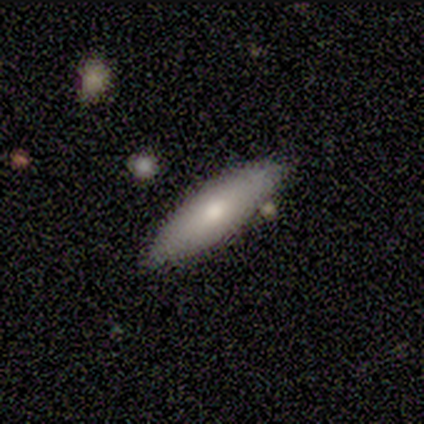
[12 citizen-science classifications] This is possibly a smooth galaxy (50%, tied with featured or disk). How rounded: likely cigar-shaped (67%). Merging: clearly none (92%).